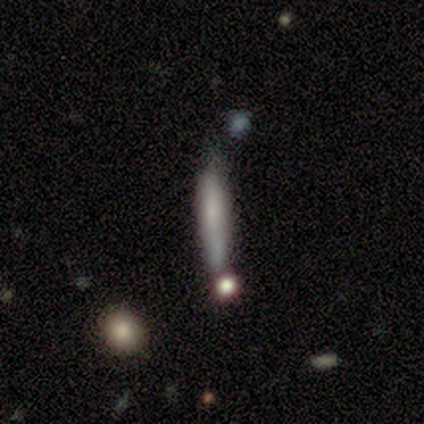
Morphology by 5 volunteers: Smooth or featured? 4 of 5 (80%) said smooth. How rounded? 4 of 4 (100%) said cigar-shaped. Merging? 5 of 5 (100%) said none.